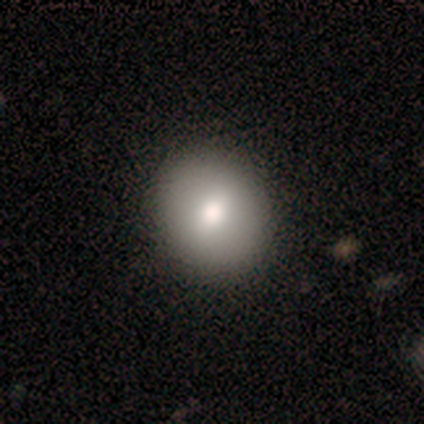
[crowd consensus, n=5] Volunteers were most divided on "how rounded": round: 75%, in between: 25%, cigar-shaped: 0%. More confident: merging — none (100%); smooth or featured — smooth (80%).